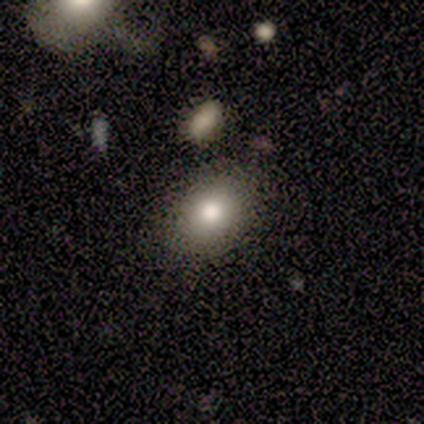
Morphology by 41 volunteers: Overall: smooth (88%). How rounded: round (50%; in between 47%). Merging: none (82%).